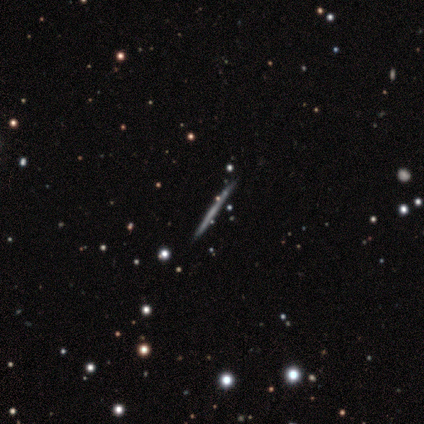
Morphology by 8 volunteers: smooth-or-featured: featured or disk: 50% | smooth: 25% | star or artifact: 25%
  disk-edge-on: yes: 100% | no: 0%
    edge-on-bulge: none: 100% | boxy: 0% | rounded: 0%
  merging: none: 83% | minor disturbance: 17% | major disturbance: 0% | merger: 0%